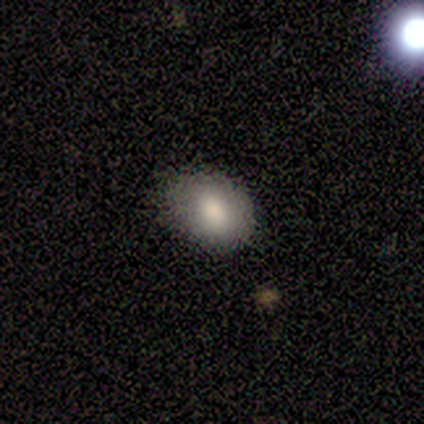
This is clearly a smooth galaxy (100%). How rounded: clearly in between (80%). Merging: clearly none (80%).